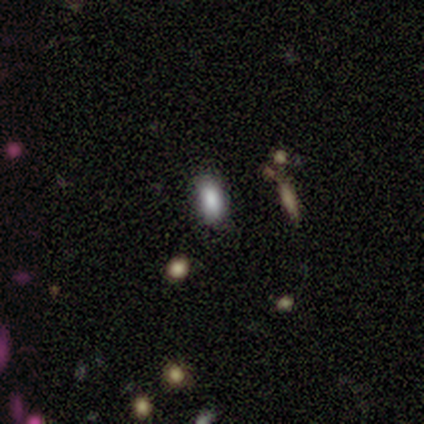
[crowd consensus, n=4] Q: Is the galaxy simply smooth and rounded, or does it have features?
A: smooth — 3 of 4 (75%).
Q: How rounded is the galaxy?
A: in between — 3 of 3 (100%).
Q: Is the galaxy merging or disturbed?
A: none — 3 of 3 (100%).